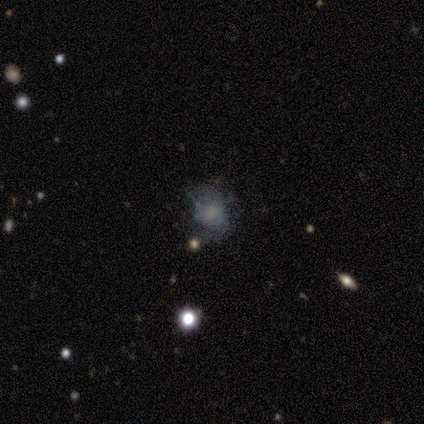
This appears to be a smooth galaxy with no disk features (60%) that is round (67%). Merging: none (50%).